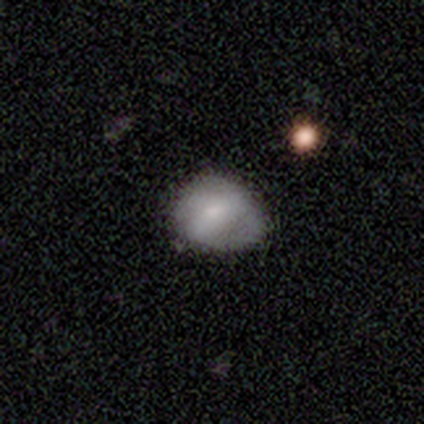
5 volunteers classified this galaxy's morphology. A smooth galaxy with no disk features (60%) that is round (100%). Merging: none (100%).